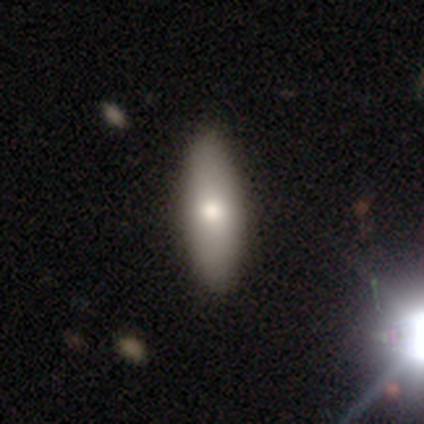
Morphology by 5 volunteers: smooth-or-featured: smooth: 60% | star or artifact: 40% | featured or disk: 0%
  how-rounded: in between: 100% | round: 0% | cigar-shaped: 0%
  merging: none: 100% | minor disturbance: 0% | major disturbance: 0% | merger: 0%